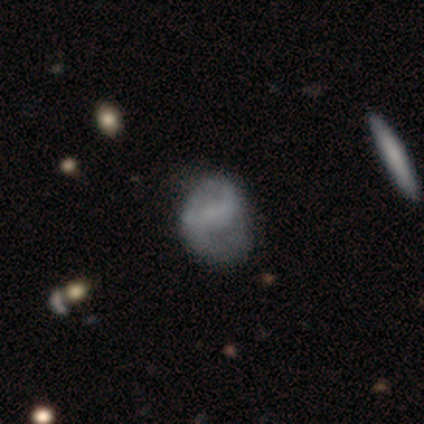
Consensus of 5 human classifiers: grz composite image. It shows a smooth galaxy with no disk features (60%) that is round (67%). Merging: none (60%).